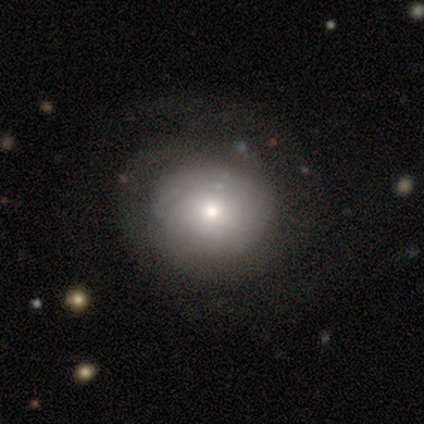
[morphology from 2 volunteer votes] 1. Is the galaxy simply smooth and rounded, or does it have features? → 100% featured or disk, 0% smooth, 0% star or artifact.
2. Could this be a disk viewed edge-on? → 100% no, 0% yes.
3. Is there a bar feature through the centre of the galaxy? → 100% no, 0% strong, 0% weak.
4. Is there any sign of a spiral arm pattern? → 100% yes, 0% no.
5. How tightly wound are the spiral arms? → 100% tight, 0% medium, 0% loose.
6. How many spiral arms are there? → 50% 2 (tied), 50% can't tell (tied), 0% 1, 0% 3, 0% 4, 0% more than 4.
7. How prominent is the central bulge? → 100% small, 0% dominant, 0% large, 0% moderate, 0% none.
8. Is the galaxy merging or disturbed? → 100% none, 0% minor disturbance, 0% major disturbance, 0% merger.